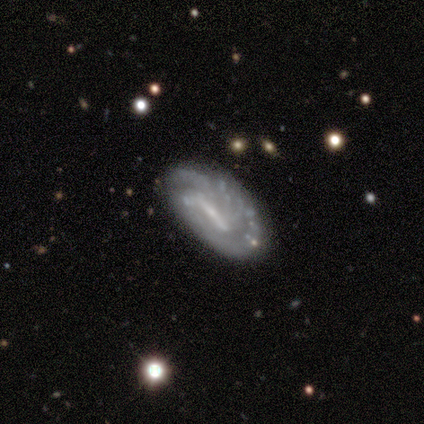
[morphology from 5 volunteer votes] Smooth or featured: featured or disk — 100%
Edge-on disk: no — 100%
Bar: weak — 60% (strong — 20%)
Spiral arms: no — 60% (yes — 40%)
Bulge size: moderate — 40% (tied with none — 40%)
Merging: none — 100%